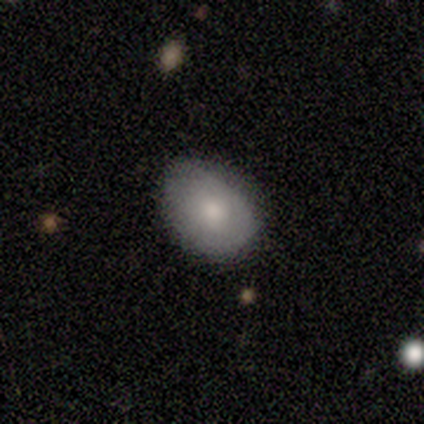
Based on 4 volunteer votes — smooth_or_featured: smooth (p=0.50) [tied with: featured or disk p=0.50]
how_rounded: round (p=0.50) [tied with: in between p=0.50]
merging: none (p=0.75) [alt: minor disturbance p=0.25]